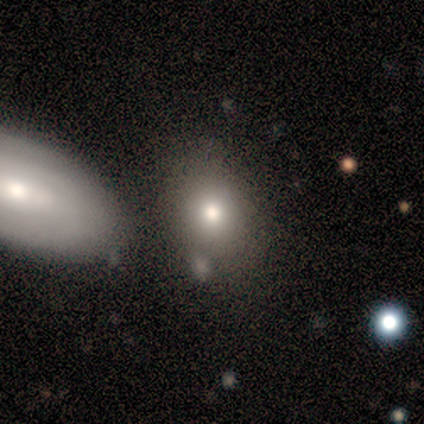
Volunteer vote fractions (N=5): Q: Smooth or featured?
A: smooth (80%); runner-up: star or artifact (20%)
Q: How rounded?
A: in between (100%)
Q: Merging?
A: none (50%); runner-up: minor disturbance (25%)